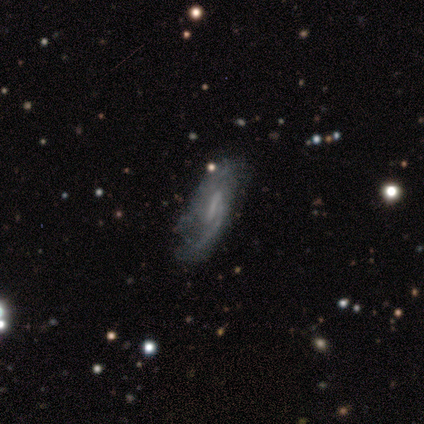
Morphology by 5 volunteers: This is clearly a featured or disk galaxy (100%). It is clearly not viewed edge-on (80%). Bar: possibly weak (50%). Spiral arm pattern: likely yes (75%). Spiral arm count: likely 2 (67%). Spiral winding: likely loose (67%). Central bulge: possibly moderate (50%). Merging: likely none (60%).